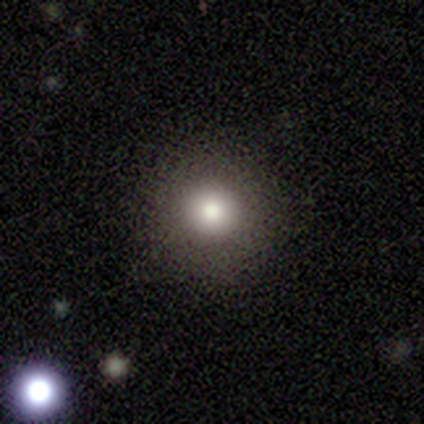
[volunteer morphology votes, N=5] smooth 100%, featured or disk 0%, star or artifact 0%. Down the decision tree: how rounded — round (100%); merging — none (80%).